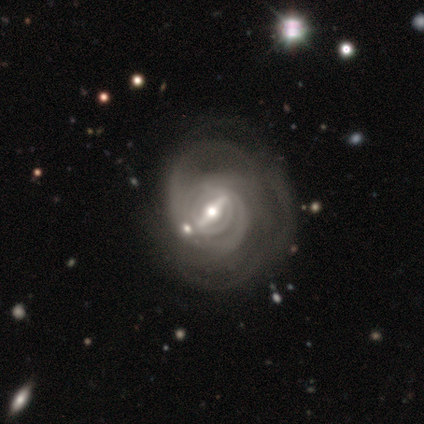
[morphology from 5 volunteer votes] smooth_or_featured: featured or disk (p=0.80) [alt: star or artifact p=0.20]
disk_edge_on: no (p=1.00)
bar: strong (p=1.00)
has_spiral_arms: yes (p=1.00)
spiral_winding: tight (p=0.75) [alt: loose p=0.25]
spiral_arm_count: more than 4 (p=0.50) [tied with: can't tell p=0.50]
bulge_size: moderate (p=0.75) [alt: small p=0.25]
merging: major disturbance (p=0.75) [alt: merger p=0.25]